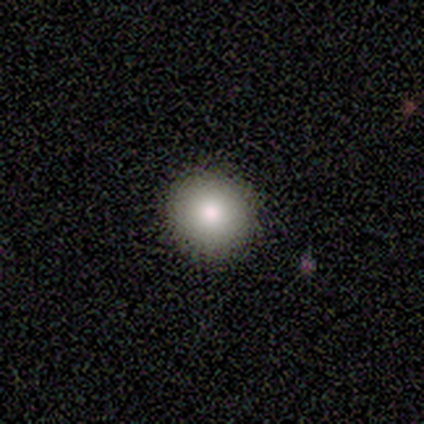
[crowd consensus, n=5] This is clearly a smooth galaxy (100%). How rounded: clearly round (100%). Merging: clearly none (100%).